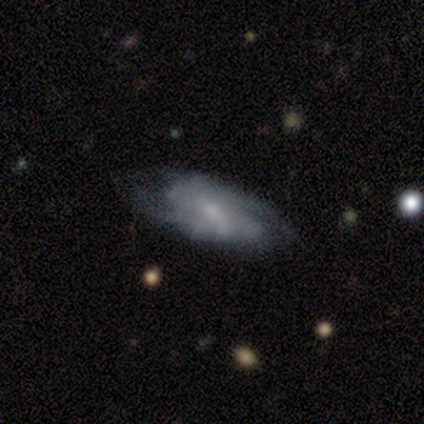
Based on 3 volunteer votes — Smooth or featured? featured or disk (100%)
Edge-on disk? yes (67%)
Edge-on bulge? rounded (100%)
Merging? none (67%)